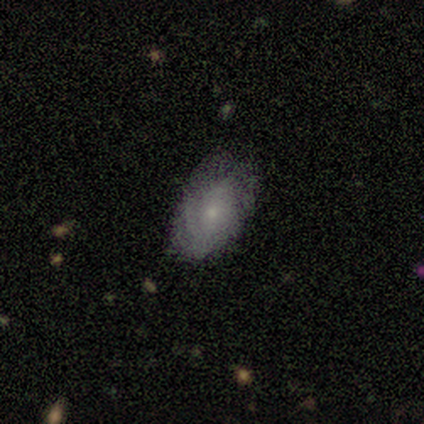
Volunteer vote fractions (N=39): Overall: featured or disk (62%; smooth 36%). Edge-on disk: no (100%). Bar: no (71%). Spiral arms: yes (83%). Spiral arm count: can't tell (65%). Spiral winding: tight (55%; medium 35%). Bulge size: small (83%). Merging: none (61%; minor disturbance 37%).